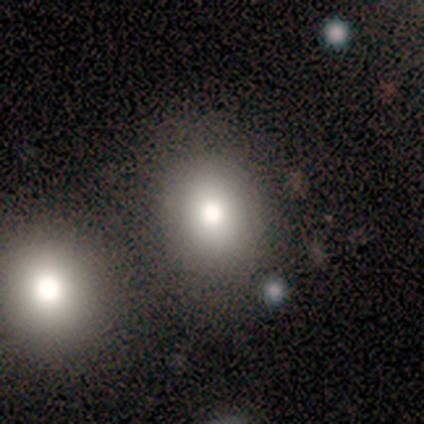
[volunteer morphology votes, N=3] Overall: smooth (33%, tied with featured or disk and star or artifact). How rounded: in between (100%). Merging: none (100%).